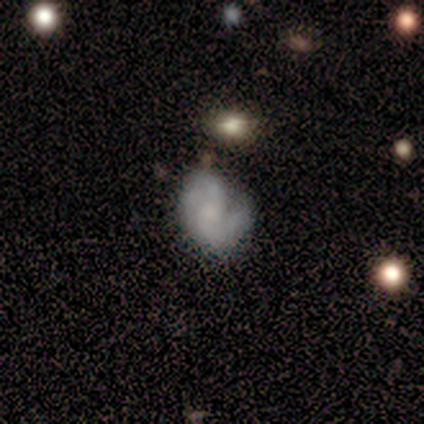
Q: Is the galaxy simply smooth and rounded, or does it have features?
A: featured or disk — 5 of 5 (100%).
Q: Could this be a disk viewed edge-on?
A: no — 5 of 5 (100%).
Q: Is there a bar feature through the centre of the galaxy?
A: no — 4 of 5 (80%).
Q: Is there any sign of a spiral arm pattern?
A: yes — 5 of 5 (100%).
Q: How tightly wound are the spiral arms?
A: tight — 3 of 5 (60%).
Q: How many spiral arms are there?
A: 2 — 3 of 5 (60%).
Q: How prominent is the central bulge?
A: moderate — 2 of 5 (40%, tied with small).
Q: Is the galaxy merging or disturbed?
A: minor disturbance — 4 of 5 (80%).